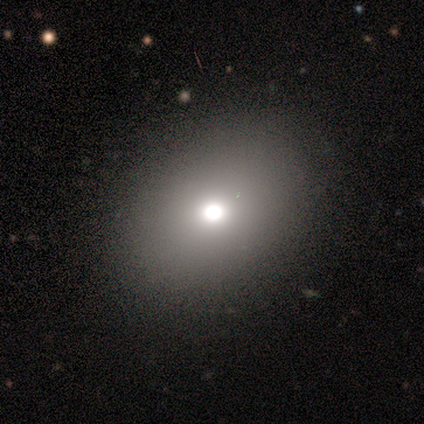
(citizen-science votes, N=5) A smooth galaxy with no disk features (80%) that is round (50%, tied with in between). Merging: none (100%).